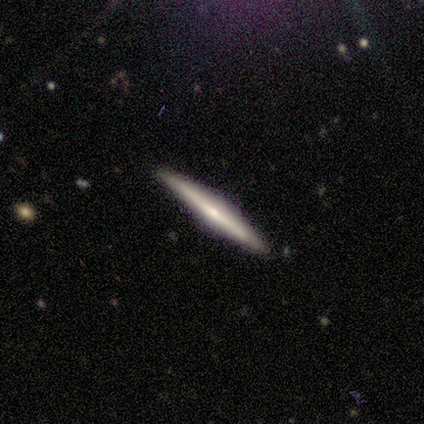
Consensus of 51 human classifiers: Smooth or featured: featured or disk — 80% (smooth — 20%)
Edge-on disk: yes — 98% (no — 2%)
Edge-on bulge: rounded — 80% (boxy — 10%)
Merging: none — 90% (minor disturbance — 8%)